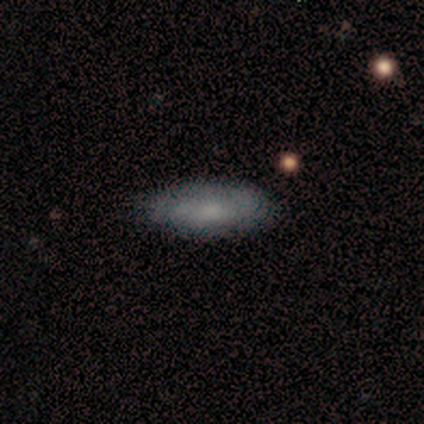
Smooth or featured: smooth — 75% (featured or disk — 25%)
How rounded: in between — 67% (cigar-shaped — 33%)
Merging: none — 100%